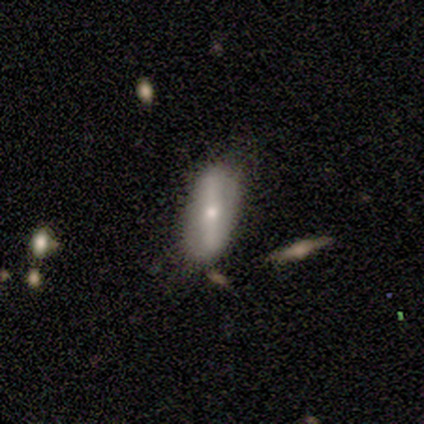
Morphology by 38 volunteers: A featured or disk galaxy (53%) with a strong bar (83%), no spiral arms (83%) and a moderate central bulge (61%). Merging: none (69%).